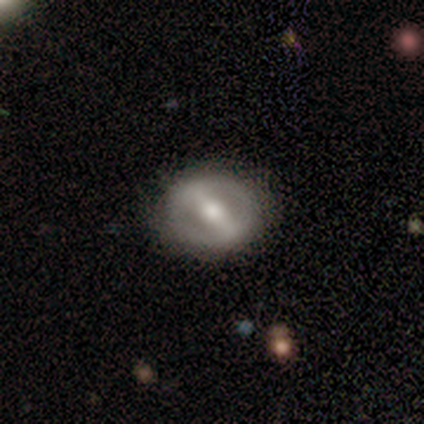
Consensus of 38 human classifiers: Overall: featured or disk (58%; smooth 39%). Edge-on disk: no (95%). Bar: strong (95%). Spiral arms: no (76%). Bulge size: moderate (52%; small 29%). Merging: none (78%).